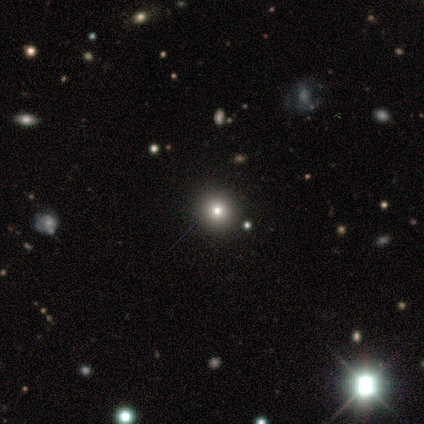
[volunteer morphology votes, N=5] type=smooth (80%); roundness=round (100%); merging=none (100%).